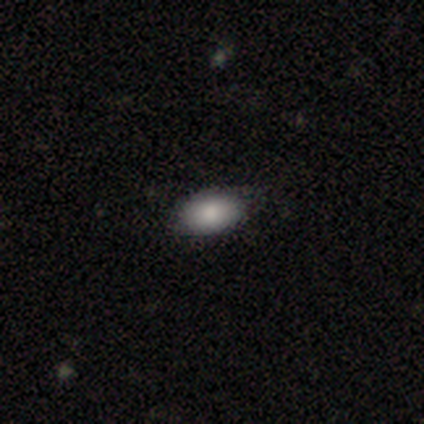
Overall: smooth (100%). How rounded: in between (88%). Merging: none (88%).